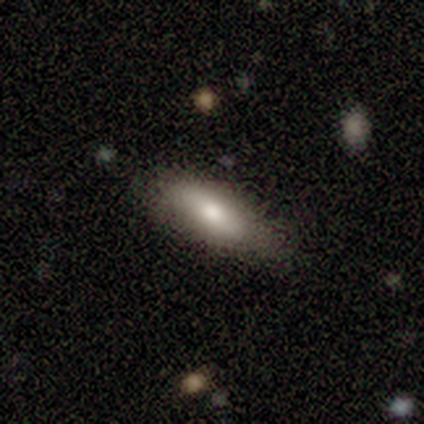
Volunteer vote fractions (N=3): This is likely a smooth galaxy (67%). How rounded: possibly in between (50%, tied with cigar-shaped). Merging: possibly none (50%, tied with minor disturbance).